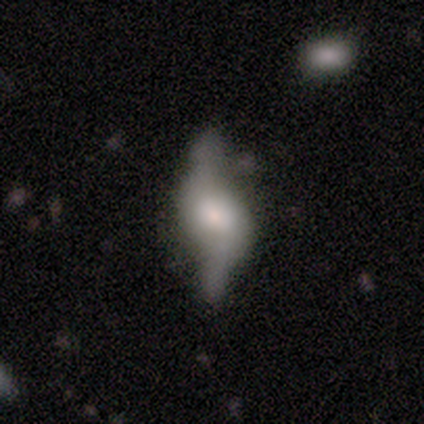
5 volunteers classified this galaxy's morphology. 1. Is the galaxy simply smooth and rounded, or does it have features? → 80% featured or disk, 20% smooth, 0% star or artifact.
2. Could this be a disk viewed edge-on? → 50% yes (tied), 50% no (tied).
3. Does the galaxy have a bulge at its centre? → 100% rounded, 0% boxy, 0% none.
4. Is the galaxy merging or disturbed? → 60% none, 20% major disturbance, 20% merger, 0% minor disturbance.